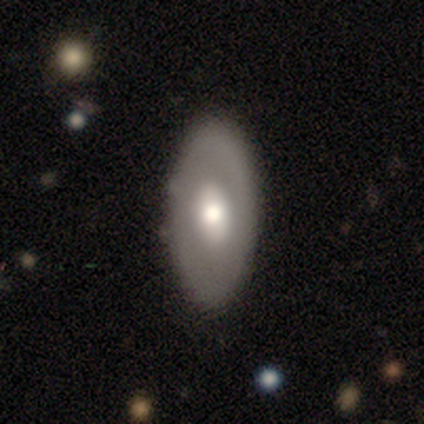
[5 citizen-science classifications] Volunteers were most divided on "bar" (2-way tie): weak: 50%, no: 50%, strong: 0%. More confident: spiral arms — no (100%); bulge size — moderate (100%); merging — none (100%); edge-on disk — no (67%); smooth or featured — featured or disk (60%).